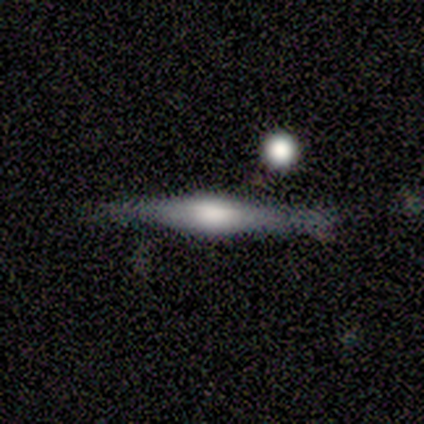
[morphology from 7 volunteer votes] Volunteers were most divided on "edge-on bulge" (3-way tie): boxy: 33%, none: 33%, rounded: 33%. More confident: edge-on disk — yes (100%); smooth or featured — featured or disk (86%); merging — none (57%).